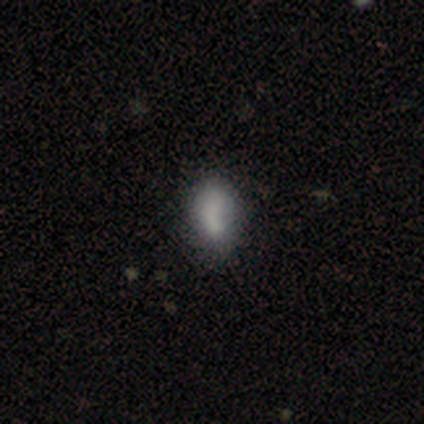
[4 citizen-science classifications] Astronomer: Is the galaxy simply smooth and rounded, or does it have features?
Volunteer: smooth — 50%, tied with featured or disk at 50%.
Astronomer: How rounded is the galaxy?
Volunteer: round — 50%, tied with in between at 50%.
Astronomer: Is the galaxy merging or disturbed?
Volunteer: none — 50%, tied with minor disturbance at 50%.